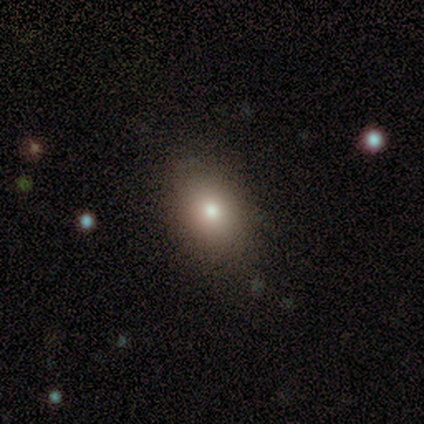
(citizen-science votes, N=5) Overall: smooth (80%). How rounded: in between (100%). Merging: none (100%).